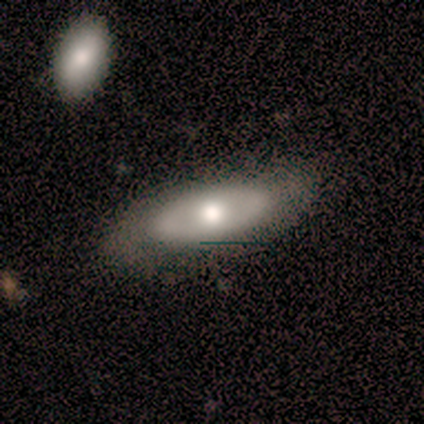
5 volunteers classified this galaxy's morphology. Q: Smooth or featured?
A: featured or disk (80%); runner-up: smooth (20%)
Q: Edge-on disk?
A: no (100%)
Q: Bar?
A: no (100%)
Q: Spiral arms?
A: no (75%); runner-up: yes (25%)
Q: Bulge size?
A: moderate (100%)
Q: Merging?
A: none (100%)